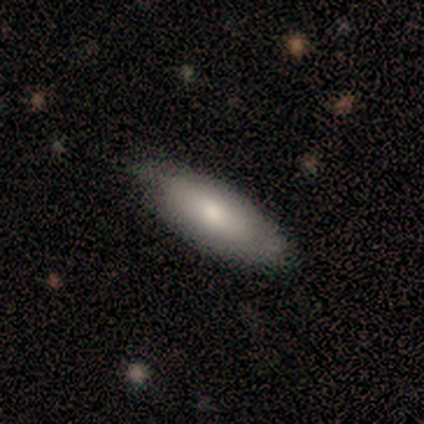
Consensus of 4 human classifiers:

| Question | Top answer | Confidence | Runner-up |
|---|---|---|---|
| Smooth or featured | smooth | 75% | featured or disk (25%) |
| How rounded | in between | 100% | — |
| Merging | none | 50% | tied: minor disturbance (50%) |